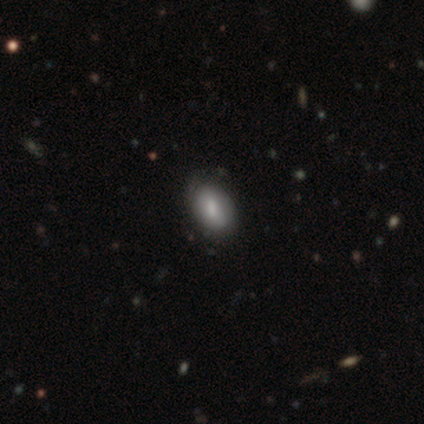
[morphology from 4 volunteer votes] Smooth or featured? 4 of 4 (100%) said smooth. How rounded? 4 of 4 (100%) said in between. Merging? 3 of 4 (75%) said none.